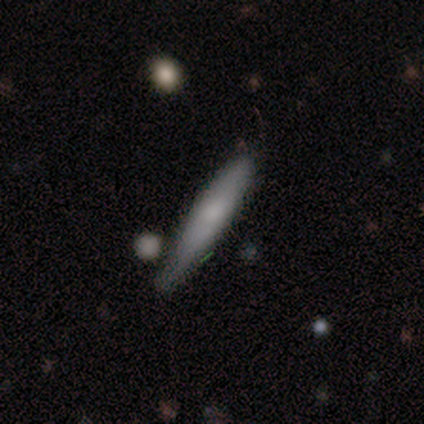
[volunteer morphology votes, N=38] smooth-or-featured: smooth: 76% | featured or disk: 24% | star or artifact: 0%
  how-rounded: cigar-shaped: 93% | in between: 7% | round: 0%
  merging: none: 63% | minor disturbance: 29% | merger: 8% | major disturbance: 0%